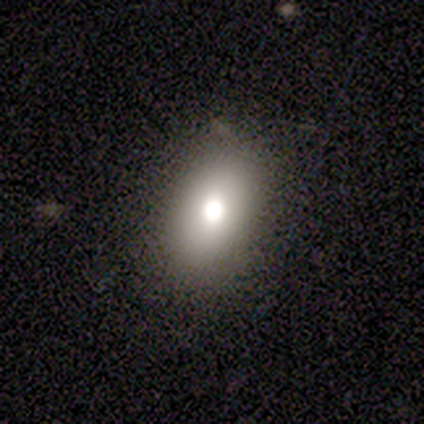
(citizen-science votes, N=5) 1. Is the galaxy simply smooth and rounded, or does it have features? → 80% smooth, 20% featured or disk, 0% star or artifact.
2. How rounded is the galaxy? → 100% in between, 0% round, 0% cigar-shaped.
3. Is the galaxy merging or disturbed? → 80% none, 20% major disturbance, 0% minor disturbance, 0% merger.